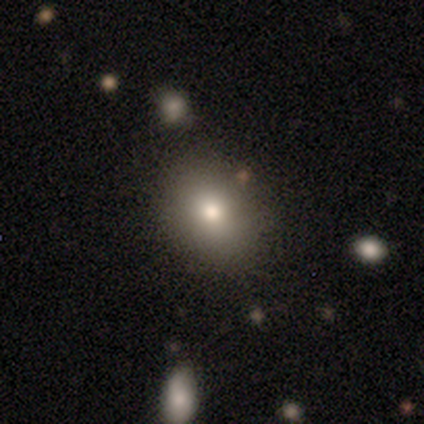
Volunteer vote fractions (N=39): A smooth galaxy with no disk features (69%) that is in between round and cigar-shaped (56%). Merging: none (77%).